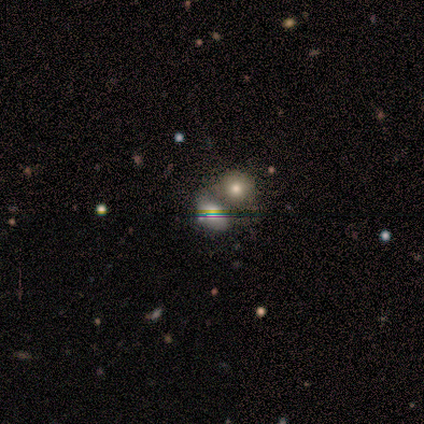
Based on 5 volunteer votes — smooth_or_featured: smooth (p=0.80) [alt: star or artifact p=0.20]
how_rounded: in between (p=1.00)
merging: merger (p=0.75) [alt: none p=0.25]